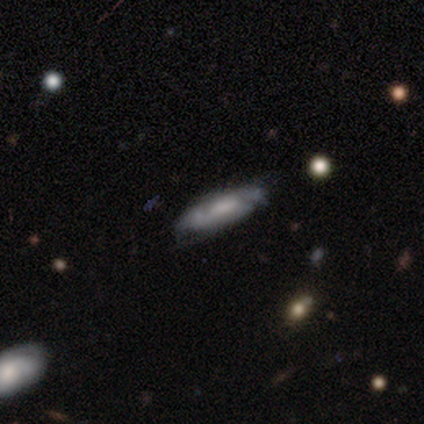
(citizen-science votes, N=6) smooth-or-featured: featured or disk: 83% | smooth: 17% | star or artifact: 0%
  disk-edge-on: no: 100% | yes: 0%
    bar: no: 60% | weak: 40% | strong: 0%
    has-spiral-arms: no: 60% | yes: 40%
    bulge-size: large: 40% | moderate: 20% | small: 20% | none: 20% | dominant: 0%
  merging: none: 67% | minor disturbance: 33% | major disturbance: 0% | merger: 0%